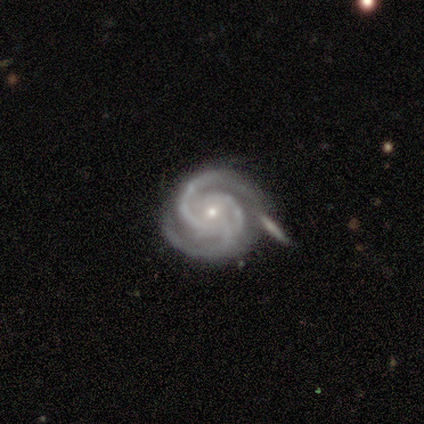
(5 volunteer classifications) Smooth or featured?
  - featured or disk: 100% *
  - smooth: 0%
  - star or artifact: 0%
Edge-on disk?
  - no: 100% *
  - yes: 0%
Bar?
  - no: 60% *
  - weak: 40%
  - strong: 0%
Spiral arms?
  - yes: 100% *
  - no: 0%
Spiral winding?
  - tight: 100% *
  - medium: 0%
  - loose: 0%
Spiral arm count?
  - 2: 60% *
  - 3: 40%
  - 1: 0%
  - 4: 0%
  - more than 4: 0%
  - can't tell: 0%
Bulge size?
  - small: 60% *
  - moderate: 20%
  - none: 20%
  - dominant: 0%
  - large: 0%
Merging?
  - none: 100% *
  - minor disturbance: 0%
  - major disturbance: 0%
  - merger: 0%